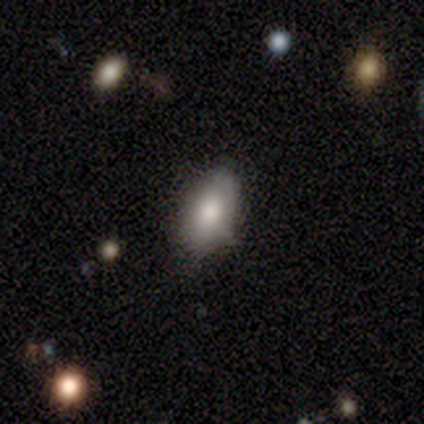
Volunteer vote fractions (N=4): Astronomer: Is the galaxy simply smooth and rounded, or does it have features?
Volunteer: smooth — 75%.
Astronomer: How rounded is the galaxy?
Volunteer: in between — 100%.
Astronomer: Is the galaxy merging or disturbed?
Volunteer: major disturbance — 50%.